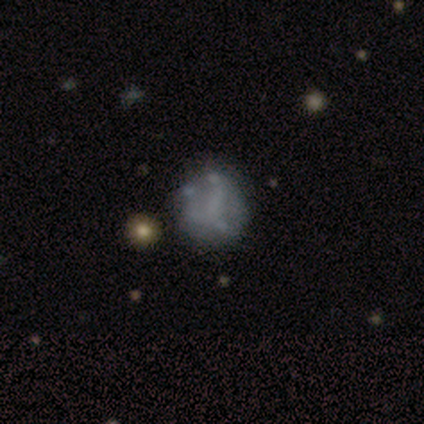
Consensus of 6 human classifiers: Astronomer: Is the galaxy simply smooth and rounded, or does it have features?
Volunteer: smooth — 50%, tied with featured or disk at 50%.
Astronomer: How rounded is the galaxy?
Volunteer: round — 100%.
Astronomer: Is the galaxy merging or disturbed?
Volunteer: none — 67%.